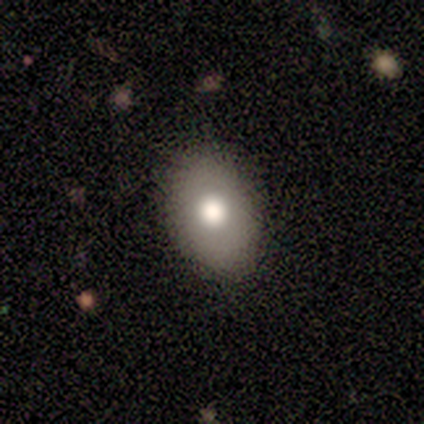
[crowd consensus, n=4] Volunteers were most divided on "merging": none: 75%, minor disturbance: 25%, major disturbance: 0%, merger: 0%. More confident: smooth or featured — smooth (100%); how rounded — in between (100%).